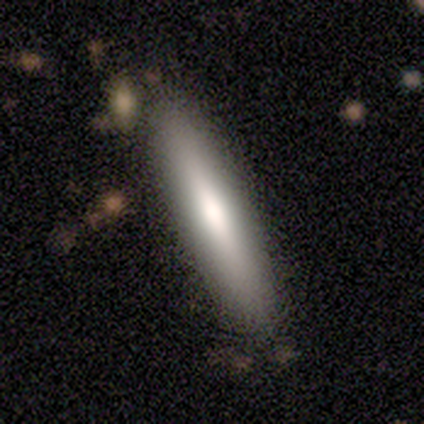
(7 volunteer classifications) Smooth or featured?
  - smooth: 71% *
  - featured or disk: 29%
  - star or artifact: 0%
How rounded?
  - cigar-shaped: 100% *
  - round: 0%
  - in between: 0%
Merging?
  - none: 100% *
  - minor disturbance: 0%
  - major disturbance: 0%
  - merger: 0%